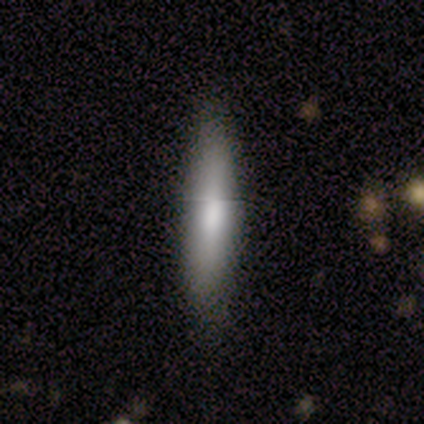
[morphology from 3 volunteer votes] smooth_or_featured: smooth (p=1.00)
how_rounded: cigar-shaped (p=1.00)
merging: none (p=1.00)